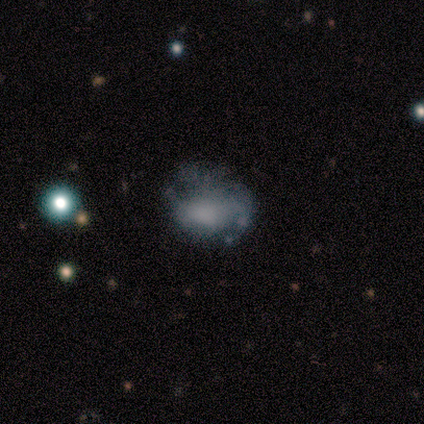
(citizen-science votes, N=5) A smooth galaxy with no disk features (80%) that is in between round and cigar-shaped (100%). Merging: major disturbance (40%).